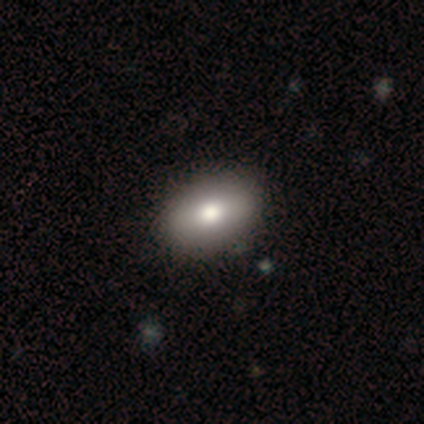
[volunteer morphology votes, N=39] smooth-or-featured: smooth: 79% | featured or disk: 13% | star or artifact: 8%
  how-rounded: in between: 87% | round: 13% | cigar-shaped: 0%
  merging: none: 69% | merger: 6% | minor disturbance: 3% | major disturbance: 3%